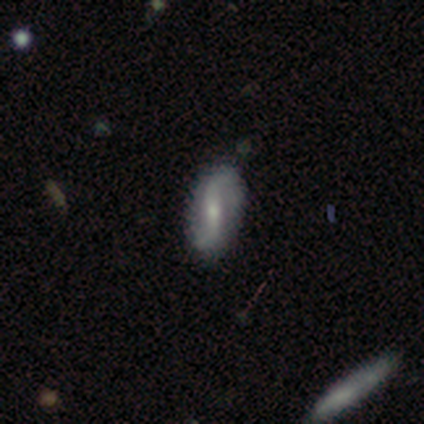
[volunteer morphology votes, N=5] type=featured or disk (80%); edge-on=no (100%); bar=strong (75%); spiral arms=yes (100%); winding=loose (100%); arm count=2 (100%); bulge=small (75%); merging=none (100%).